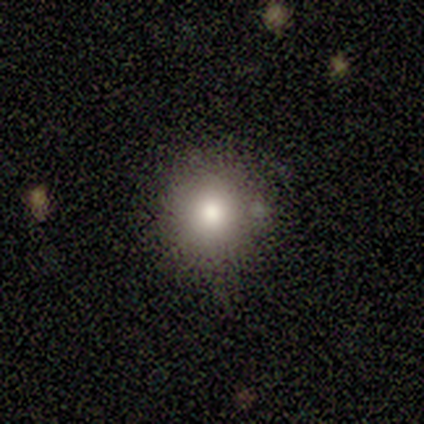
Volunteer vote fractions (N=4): A smooth galaxy with no disk features (100%) that is round (100%).

Vote fractions:
- Smooth or featured? smooth: 100% / featured or disk: 0% / star or artifact: 0%
- How rounded? round: 100% / in between: 0% / cigar-shaped: 0%
- Merging? none: 100% / minor disturbance: 0% / major disturbance: 0% / merger: 0%